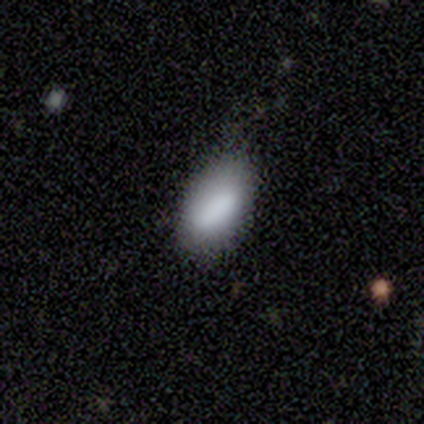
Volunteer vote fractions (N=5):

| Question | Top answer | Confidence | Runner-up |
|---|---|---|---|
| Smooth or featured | smooth | 100% | — |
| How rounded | in between | 100% | — |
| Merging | minor disturbance | 60% | none (40%) |